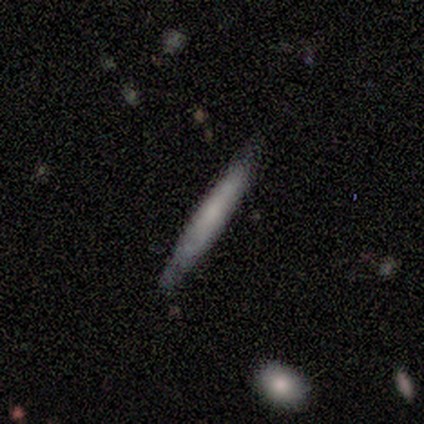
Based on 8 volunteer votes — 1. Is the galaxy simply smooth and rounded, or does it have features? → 50% smooth, 38% featured or disk, 12% star or artifact.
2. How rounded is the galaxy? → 100% cigar-shaped, 0% round, 0% in between.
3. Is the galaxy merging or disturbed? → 100% none, 0% minor disturbance, 0% major disturbance, 0% merger.